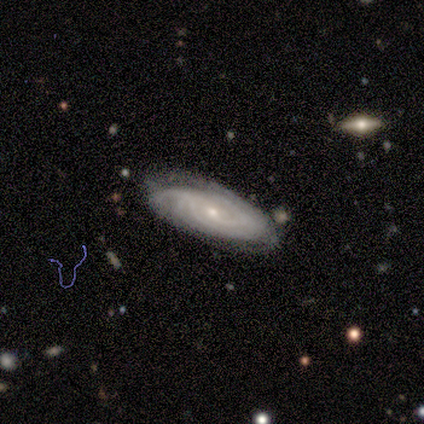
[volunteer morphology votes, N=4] featured or disk 100%, smooth 0%, star or artifact 0%. Down the decision tree: edge-on disk — no (100%); bar — weak (75%); spiral arms — yes (100%); spiral arm count — 4 (50%); spiral winding — tight (100%); bulge size — moderate (50%); merging — none (100%).